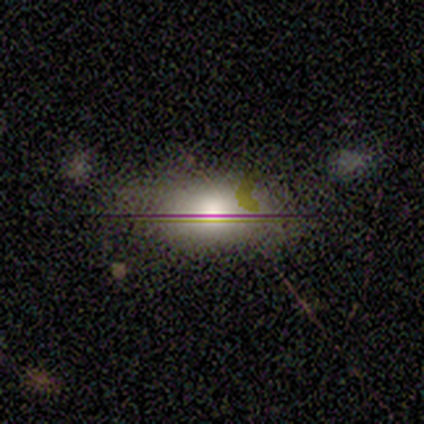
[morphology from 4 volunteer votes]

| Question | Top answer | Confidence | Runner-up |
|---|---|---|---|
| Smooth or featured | smooth | 75% | star or artifact (25%) |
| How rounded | in between | 100% | — |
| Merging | none | 100% | — |